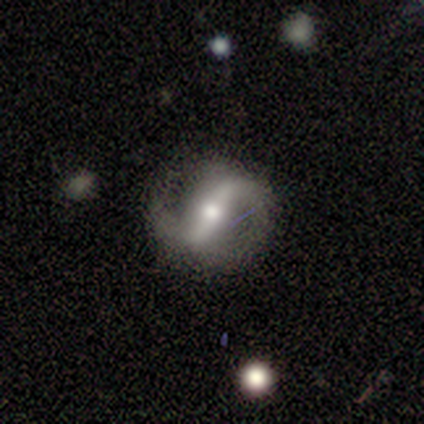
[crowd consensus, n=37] Morphology: type=featured or disk (86%); edge-on=no (91%); bar=strong (62%); spiral arms=yes (93%); winding=loose (48%); arm count=2 (96%); bulge=moderate (72%); merging=none (77%).